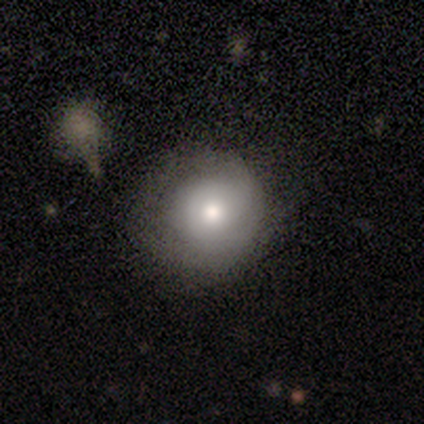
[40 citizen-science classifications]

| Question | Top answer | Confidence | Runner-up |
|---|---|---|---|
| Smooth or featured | smooth | 68% | featured or disk (28%) |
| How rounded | round | 89% | in between (7%) |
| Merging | none | 50% | minor disturbance (32%) |